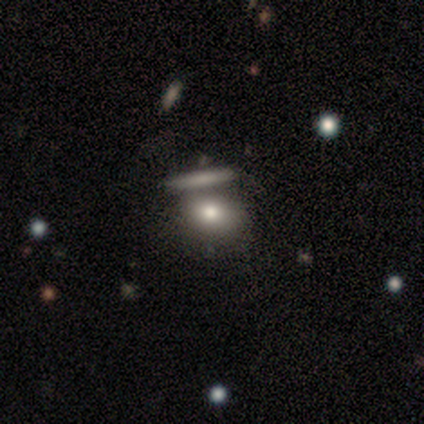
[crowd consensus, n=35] Smooth or featured: smooth — 89% (featured or disk — 11%)
How rounded: in between — 68% (round — 26%)
Merging: merger — 69%